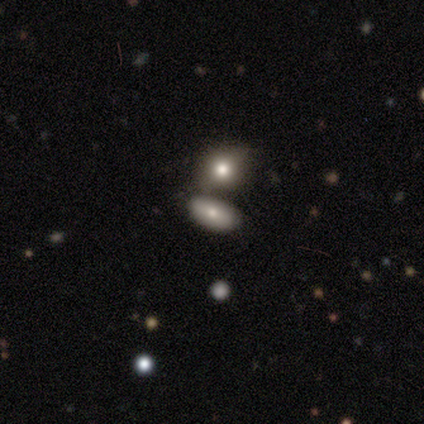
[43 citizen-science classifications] Morphology: type=smooth (74%); roundness=in between (78%); merging=none (52%).